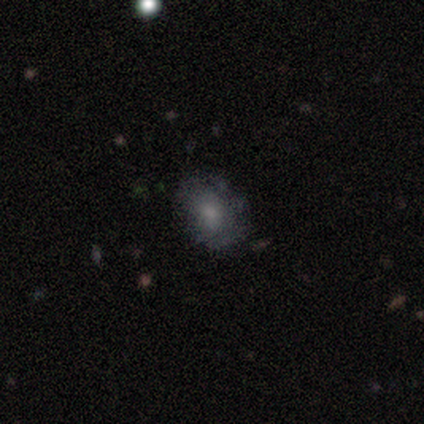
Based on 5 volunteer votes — This appears to be a smooth galaxy with no disk features (100%) that is in between round and cigar-shaped (80%). Merging: none (100%).